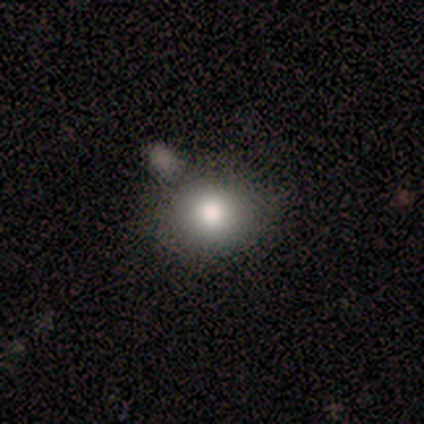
Volunteers were most divided on "smooth or featured": smooth: 80%, star or artifact: 20%, featured or disk: 0%. More confident: how rounded — round (100%); merging — none (100%).